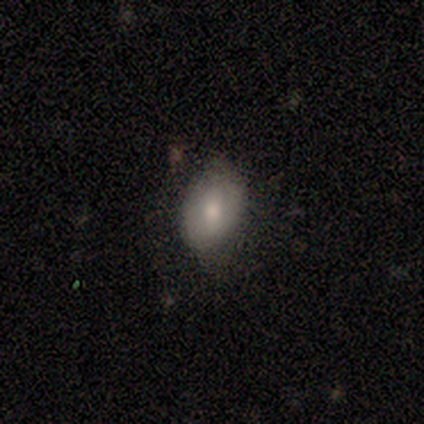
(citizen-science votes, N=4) Volunteers were most divided on "smooth or featured": smooth: 75%, featured or disk: 25%, star or artifact: 0%. More confident: how rounded — in between (100%); merging — none (75%).